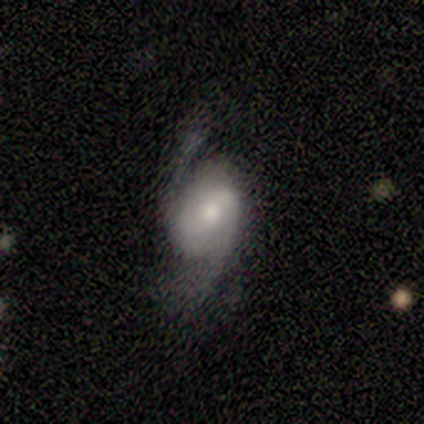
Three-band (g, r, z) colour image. It shows a smooth galaxy with no disk features (44%, tied with featured or disk) that is in between round and cigar-shaped (100%). Merging: major disturbance (50%).